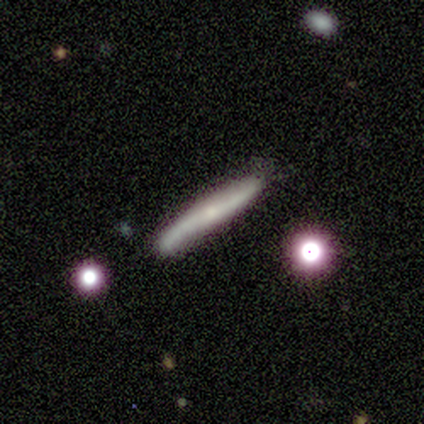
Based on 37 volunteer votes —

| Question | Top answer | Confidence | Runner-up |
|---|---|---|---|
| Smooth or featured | featured or disk | 54% | smooth (43%) |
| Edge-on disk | yes | 80% | no (20%) |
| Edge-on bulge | none | 50% | rounded (44%) |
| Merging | none | 69% | minor disturbance (28%) |